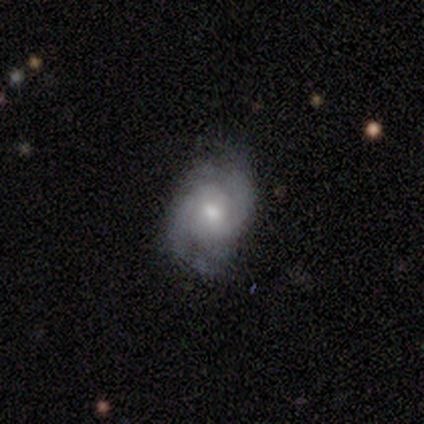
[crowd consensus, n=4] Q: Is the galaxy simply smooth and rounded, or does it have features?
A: featured or disk — 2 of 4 (50%).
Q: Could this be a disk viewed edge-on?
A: no — 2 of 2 (100%).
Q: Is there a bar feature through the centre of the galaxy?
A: weak — 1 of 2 (50%, tied with no).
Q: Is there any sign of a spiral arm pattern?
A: yes — 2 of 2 (100%).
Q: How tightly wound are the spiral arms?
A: tight — 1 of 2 (50%, tied with medium).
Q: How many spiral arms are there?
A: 2 — 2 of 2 (100%).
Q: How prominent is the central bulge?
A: moderate — 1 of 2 (50%, tied with small).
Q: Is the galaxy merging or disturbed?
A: none — 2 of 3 (67%).